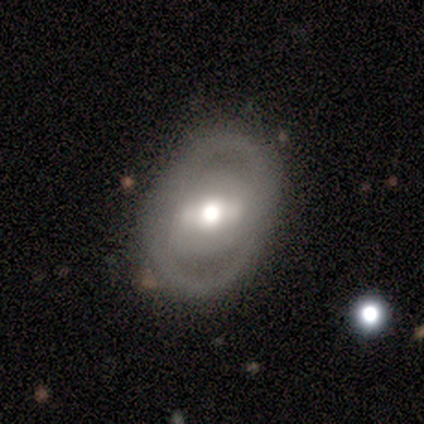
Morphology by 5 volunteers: Smooth or featured: featured or disk — 80% (smooth — 20%)
Edge-on disk: no — 100%
Bar: strong — 75% (no — 25%)
Spiral arms: no — 75% (yes — 25%)
Bulge size: moderate — 50% (large — 25%)
Merging: none — 60% (minor disturbance — 20%)